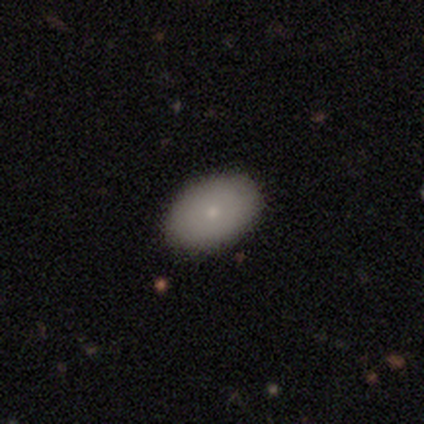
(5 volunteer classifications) Smooth or featured?
  - smooth: 80% *
  - star or artifact: 20%
  - featured or disk: 0%
How rounded?
  - in between: 100% *
  - round: 0%
  - cigar-shaped: 0%
Merging?
  - none: 100% *
  - minor disturbance: 0%
  - major disturbance: 0%
  - merger: 0%